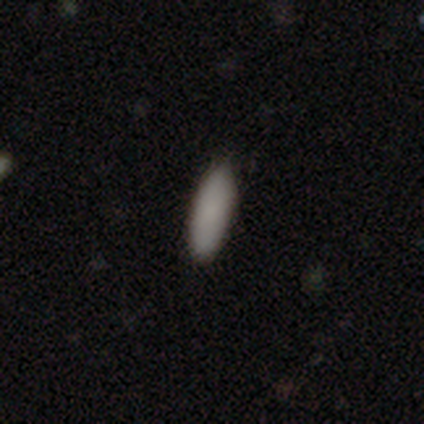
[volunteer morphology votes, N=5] This appears to be a smooth galaxy with no disk features (100%) that is in between round and cigar-shaped (60%). Merging: none (100%).